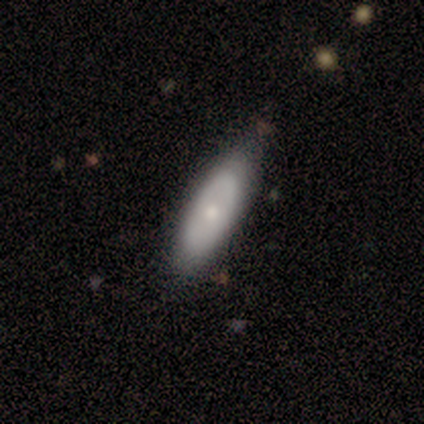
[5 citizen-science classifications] This appears to be a featured or disk galaxy (60%) with no bar (100%), no spiral arms (100%) and a small central bulge (67%). Merging: none (60%).